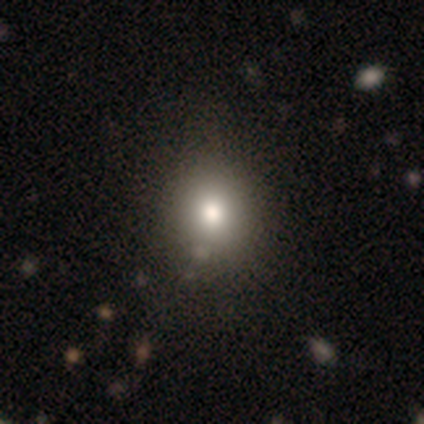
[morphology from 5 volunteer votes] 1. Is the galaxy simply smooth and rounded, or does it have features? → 60% smooth, 40% featured or disk, 0% star or artifact.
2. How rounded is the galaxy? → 67% round, 33% in between, 0% cigar-shaped.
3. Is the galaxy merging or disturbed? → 100% none, 0% minor disturbance, 0% major disturbance, 0% merger.